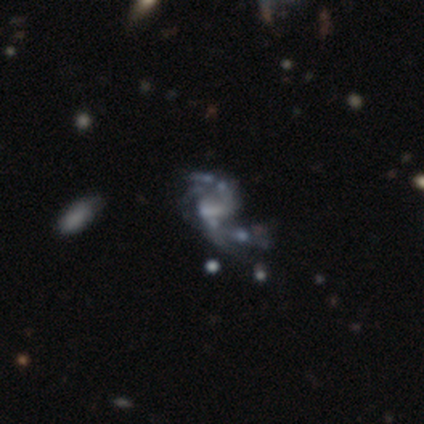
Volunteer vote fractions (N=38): Volunteers were most divided on "merging": major disturbance: 32%, merger: 29%, none: 24%, minor disturbance: 15%. Remaining: edge-on disk — no (97%); smooth or featured — featured or disk (82%); spiral arms — yes (80%); spiral arm count — 2 (58%); spiral winding — loose (54%); bar — weak (43%); bulge size — none (37%).